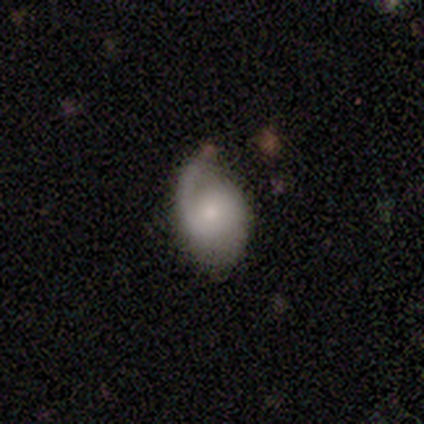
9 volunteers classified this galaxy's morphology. Q: Smooth or featured?
A: featured or disk (67%); runner-up: smooth (33%)
Q: Edge-on disk?
A: no (100%)
Q: Bar?
A: no (83%); runner-up: weak (17%)
Q: Spiral arms?
A: yes (83%); runner-up: no (17%)
Q: Spiral winding?
A: medium (40%); tied with: loose (40%)
Q: Spiral arm count?
A: 2 (60%); runner-up: 1 (40%)
Q: Bulge size?
A: moderate (50%); runner-up: small (33%)
Q: Merging?
A: none (78%); runner-up: minor disturbance (22%)